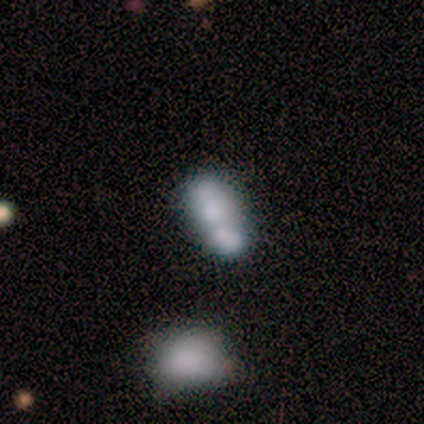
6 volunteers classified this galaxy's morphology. Smooth or featured: smooth — 67% (star or artifact — 33%)
How rounded: in between — 100%
Merging: none — 50% (minor disturbance — 25%)